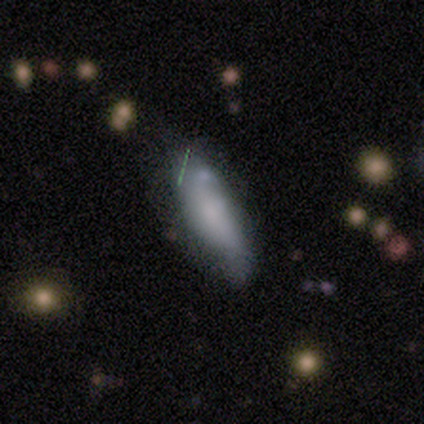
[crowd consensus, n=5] A smooth galaxy with no disk features (60%) that is in between round and cigar-shaped (100%). Merging: minor disturbance (60%).